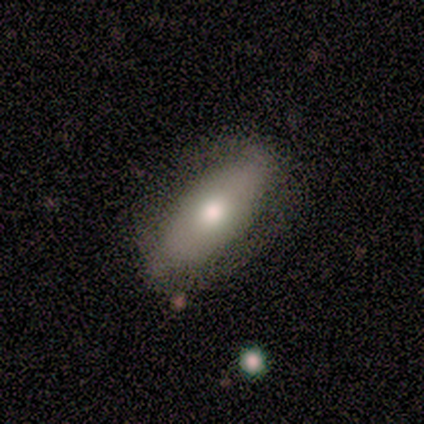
Morphology: type=featured or disk (56%); edge-on=no (80%); bar=no (75%); spiral arms=no (75%); bulge=moderate (75%); merging=none (78%).